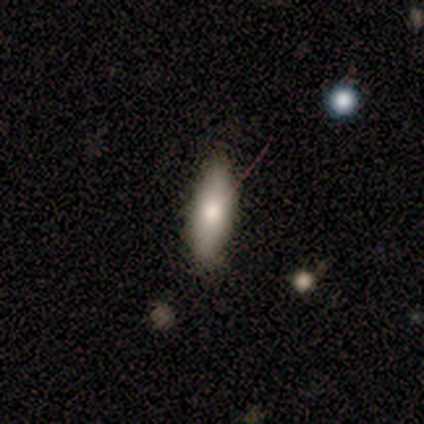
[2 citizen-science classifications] smooth-or-featured: smooth: 100% | featured or disk: 0% | star or artifact: 0%
  how-rounded: in between: 100% | round: 0% | cigar-shaped: 0%
  merging: major disturbance: 100% | none: 0% | minor disturbance: 0% | merger: 0%